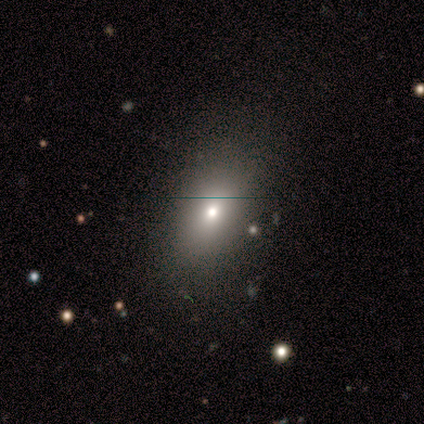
smooth_or_featured: smooth (p=1.00)
how_rounded: in between (p=0.80) [alt: round p=0.20]
merging: none (p=0.80) [alt: minor disturbance p=0.20]